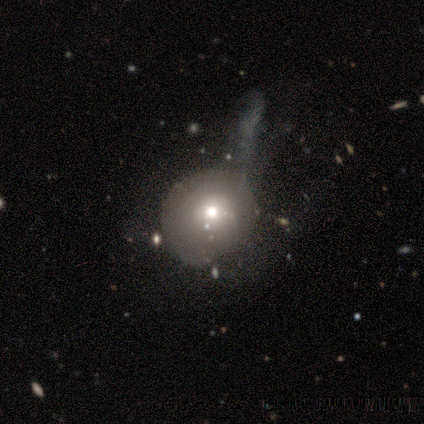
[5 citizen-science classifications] smooth 60%, featured or disk 40%, star or artifact 0%. Down the decision tree: how rounded — round (100%); merging — none (60%).